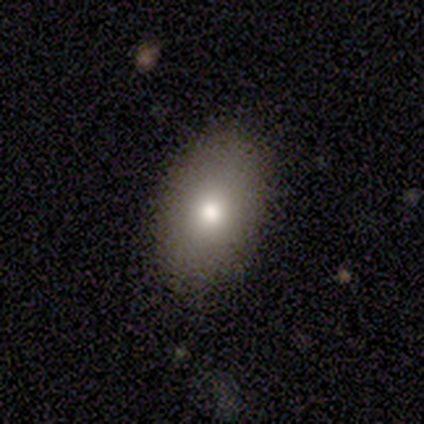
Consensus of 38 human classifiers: A smooth galaxy with no disk features (84%) that is in between round and cigar-shaped (94%). Merging: none (86%).